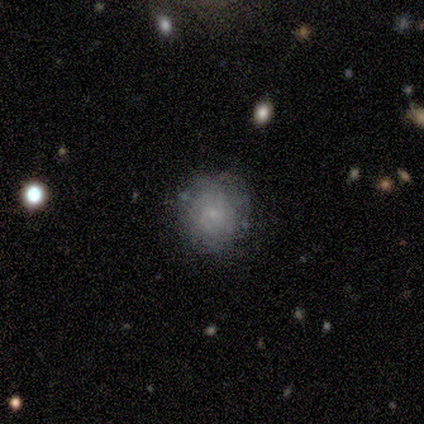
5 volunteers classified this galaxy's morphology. A smooth galaxy with no disk features (80%) that is round (100%).

Vote fractions:
- Smooth or featured? smooth: 80% / star or artifact: 20% / featured or disk: 0%
- How rounded? round: 100% / in between: 0% / cigar-shaped: 0%
- Merging? none: 75% / minor disturbance: 25% / major disturbance: 0% / merger: 0%